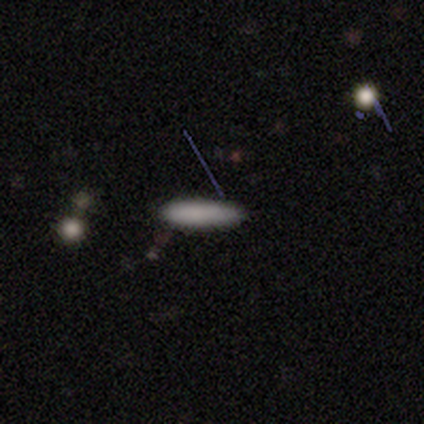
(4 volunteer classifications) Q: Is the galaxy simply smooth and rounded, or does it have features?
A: smooth — 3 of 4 (75%).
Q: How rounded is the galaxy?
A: cigar-shaped — 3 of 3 (100%).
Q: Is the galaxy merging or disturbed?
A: none — 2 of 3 (67%).